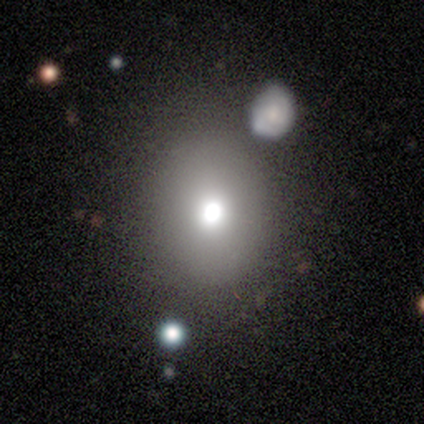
Morphology: type=smooth (80%); roundness=round (75%); merging=none (60%).